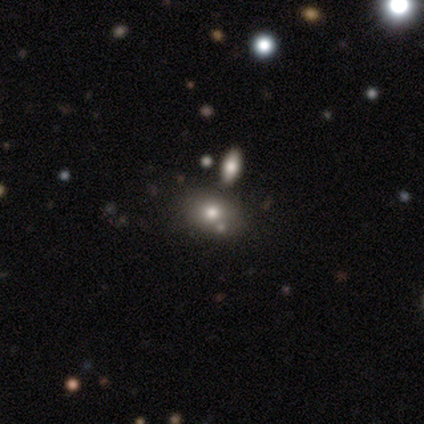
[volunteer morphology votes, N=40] A smooth galaxy with no disk features (82%) that is in between round and cigar-shaped (67%).

Vote fractions:
- Smooth or featured? smooth: 82% / star or artifact: 10% / featured or disk: 8%
- How rounded? in between: 67% / round: 30% / cigar-shaped: 3%
- Merging? none: 69% / merger: 25% / minor disturbance: 3% / major disturbance: 3%